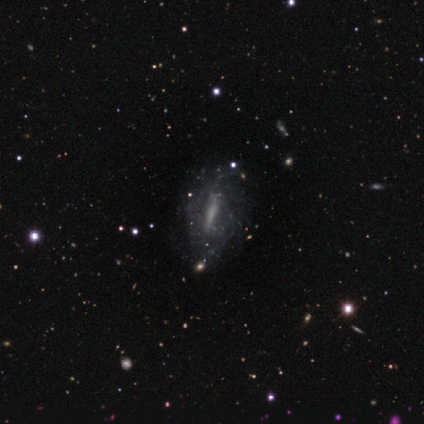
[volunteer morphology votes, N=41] A featured or disk galaxy (63%) with a strong bar (75%), medium (42%) spiral arms (60%) and no central bulge (55%).

Vote fractions:
- Smooth or featured? featured or disk: 63% / star or artifact: 20% / smooth: 17%
- Edge-on disk? no: 77% / yes: 23%
- Bar? strong: 75% / weak: 15% / no: 10%
- Spiral arms? yes: 60% / no: 40%
- Spiral winding? medium: 42% / loose: 33% / tight: 25%
- Spiral arm count? can't tell: 75% / 2: 25% / 1: 0% / 3: 0% / 4: 0% / more than 4: 0%
- Bulge size? none: 55% / moderate: 25% / small: 15% / large: 5% / dominant: 0%
- Merging? none: 64% / minor disturbance: 24% / major disturbance: 12% / merger: 0%